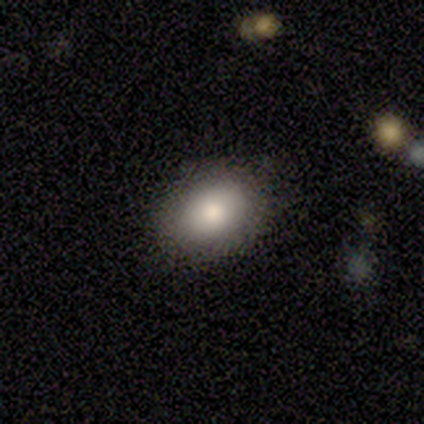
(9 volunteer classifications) Smooth or featured: smooth — 78% (featured or disk — 22%)
How rounded: in between — 100%
Merging: none — 78% (minor disturbance — 22%)